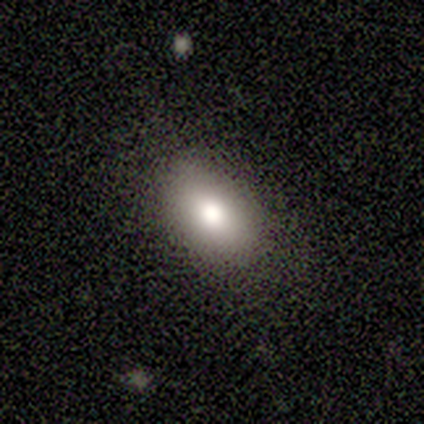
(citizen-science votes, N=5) Volunteers were most divided on "how rounded": in between: 75%, round: 25%, cigar-shaped: 0%. More confident: smooth or featured — smooth (80%); merging — none (80%).